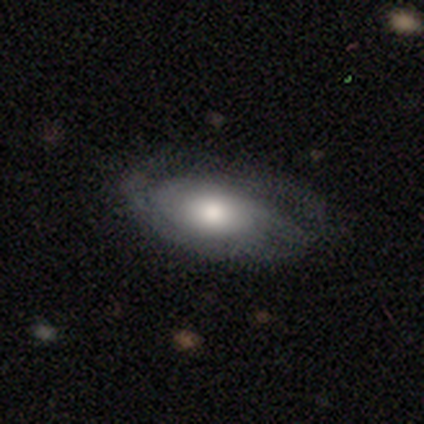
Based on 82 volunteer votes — Q: Smooth or featured?
A: featured or disk (57%); runner-up: smooth (43%)
Q: Edge-on disk?
A: no (91%); runner-up: yes (9%)
Q: Bar?
A: no (91%); runner-up: weak (9%)
Q: Spiral arms?
A: yes (84%); runner-up: no (16%)
Q: Spiral winding?
A: tight (58%); runner-up: medium (31%)
Q: Spiral arm count?
A: can't tell (44%); runner-up: 2 (19%)
Q: Bulge size?
A: moderate (60%); runner-up: large (16%)
Q: Merging?
A: none (68%); runner-up: minor disturbance (16%)